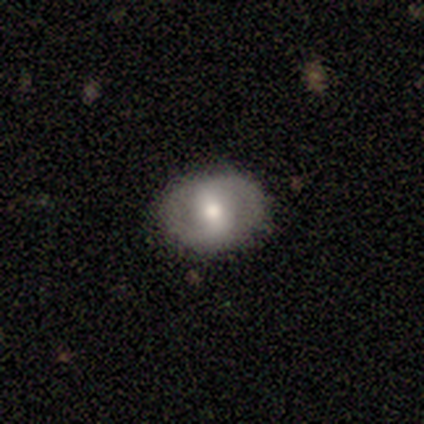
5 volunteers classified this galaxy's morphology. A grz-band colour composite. It shows a featured or disk galaxy (60%) with a strong bar (33%, tied with weak and no), 2 (100%) medium (100%) spiral arms (67%) and a moderate central bulge (100%). Merging: none (100%).